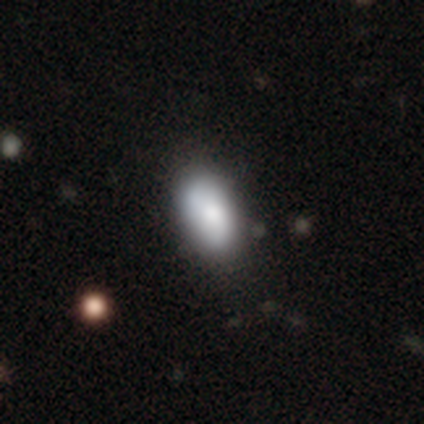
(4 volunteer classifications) smooth_or_featured: smooth (p=0.50) [tied with: star or artifact p=0.50]
how_rounded: in between (p=1.00)
merging: minor disturbance (p=1.00)